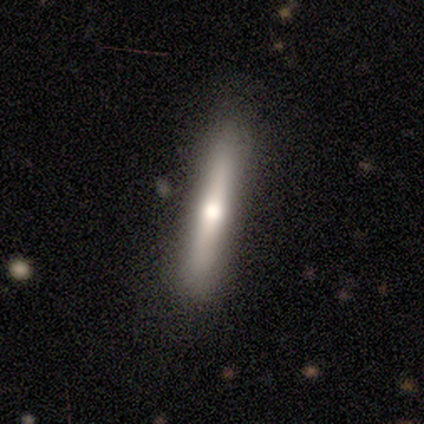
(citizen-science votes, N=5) This is marginally a featured or disk galaxy (40%, tied with star or artifact). It is clearly viewed edge-on (100%). Edge-on bulge: clearly rounded (100%). Merging: likely none (67%).